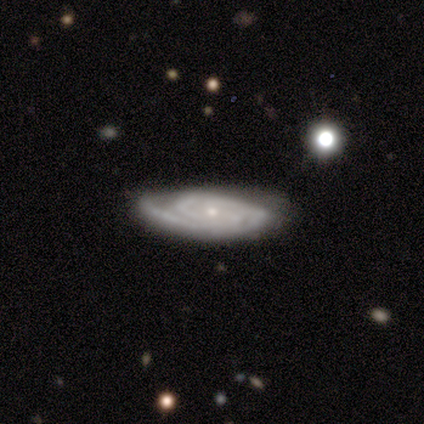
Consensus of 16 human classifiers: Q: Smooth or featured?
A: featured or disk (94%); runner-up: smooth (6%)
Q: Edge-on disk?
A: no (100%)
Q: Bar?
A: no (80%); runner-up: weak (13%)
Q: Spiral arms?
A: yes (100%)
Q: Spiral winding?
A: tight (60%); runner-up: medium (33%)
Q: Spiral arm count?
A: 2 (67%); runner-up: can't tell (20%)
Q: Bulge size?
A: small (60%); runner-up: moderate (40%)
Q: Merging?
A: none (81%); runner-up: minor disturbance (19%)